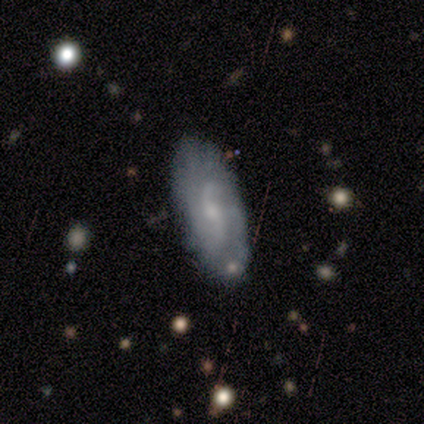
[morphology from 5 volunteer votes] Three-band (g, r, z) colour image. It shows a featured or disk galaxy (100%) with a weak bar (100%), 2 (50%, tied with can't tell) medium (75%) spiral arms (100%) and a moderate central bulge (50%, tied with small). Merging: none (80%).